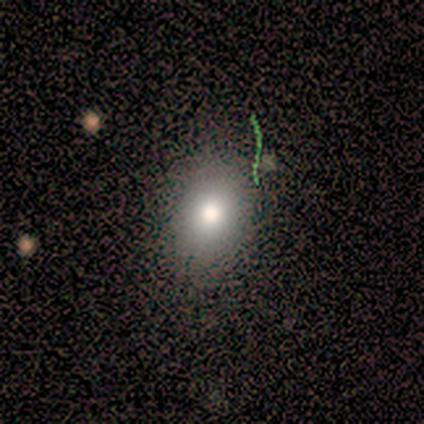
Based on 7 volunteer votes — Morphology: type=smooth (100%); roundness=in between (57%); merging=none (100%).